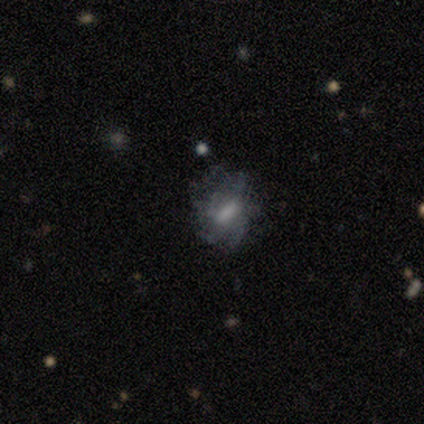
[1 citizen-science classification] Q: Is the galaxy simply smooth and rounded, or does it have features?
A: featured or disk — 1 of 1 (100%).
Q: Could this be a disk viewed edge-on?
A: no — 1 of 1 (100%).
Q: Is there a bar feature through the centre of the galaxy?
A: weak — 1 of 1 (100%).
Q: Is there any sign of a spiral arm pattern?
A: no — 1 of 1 (100%).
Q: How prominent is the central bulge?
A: small — 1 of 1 (100%).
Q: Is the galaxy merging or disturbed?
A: major disturbance — 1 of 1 (100%).